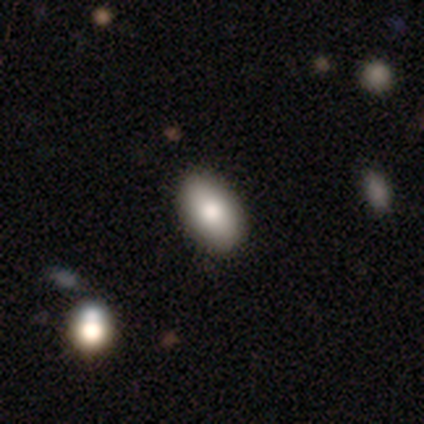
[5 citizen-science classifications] Smooth or featured?
  - smooth: 100% *
  - featured or disk: 0%
  - star or artifact: 0%
How rounded?
  - in between: 100% *
  - round: 0%
  - cigar-shaped: 0%
Merging?
  - none: 100% *
  - minor disturbance: 0%
  - major disturbance: 0%
  - merger: 0%